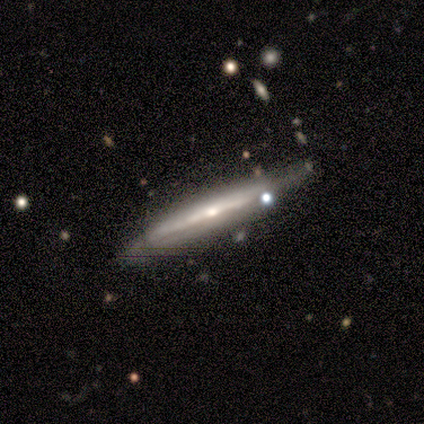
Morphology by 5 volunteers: Smooth or featured? featured or disk (80%)
Edge-on disk? yes (100%)
Edge-on bulge? none (50%, tied with rounded)
Merging? none (60%)